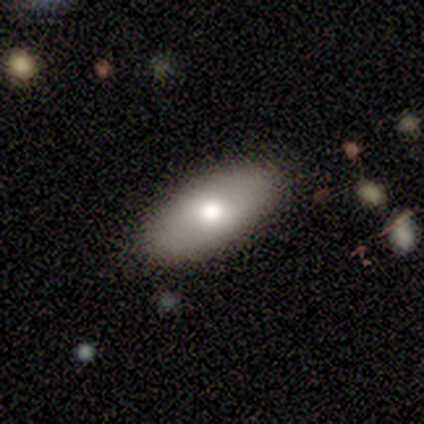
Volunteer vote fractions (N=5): Volunteers were most divided on "smooth or featured": smooth: 80%, featured or disk: 20%, star or artifact: 0%. More confident: how rounded — in between (100%); merging — none (100%).